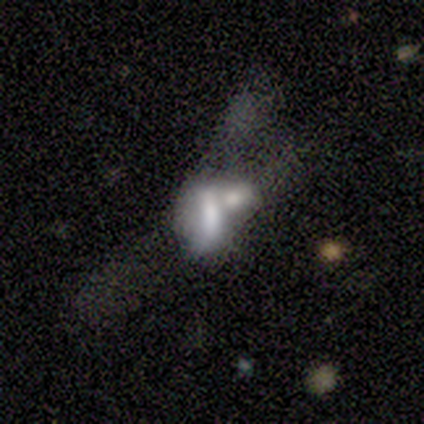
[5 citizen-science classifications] This appears to be a smooth galaxy with no disk features (60%) that is in between round and cigar-shaped (67%). Merging: merger (80%).